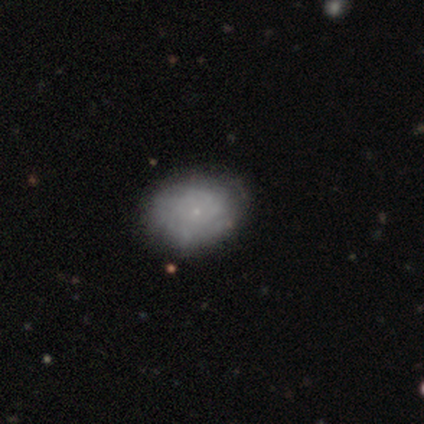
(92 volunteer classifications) Morphology: type=featured or disk (46%); edge-on=no (95%); bar=no (95%); spiral arms=yes (52%); winding=tight (71%); arm count=can't tell (76%); bulge=small (90%); merging=none (70%).